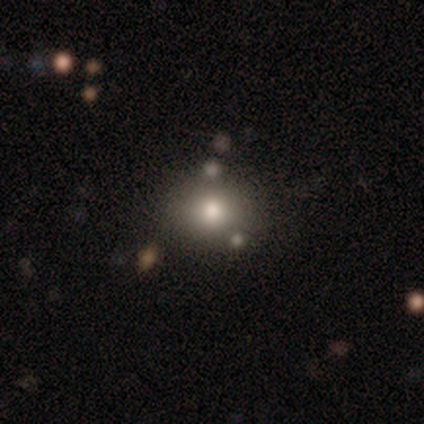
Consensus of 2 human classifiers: Overall: smooth (100%). How rounded: round (100%). Merging: none (100%).